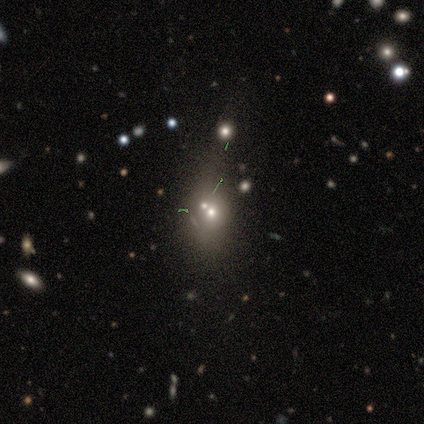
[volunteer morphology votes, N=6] smooth 50%, featured or disk 33%, star or artifact 17%. Down the decision tree: how rounded — round (67%); merging — merger (100%).